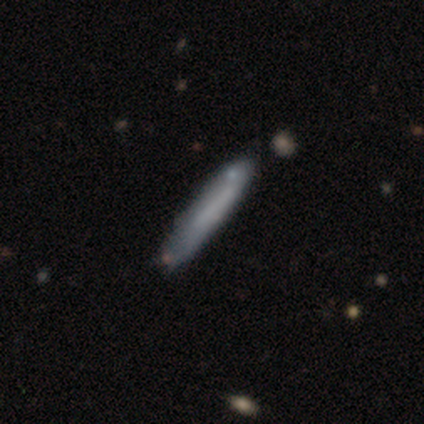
Smooth or featured: smooth — 71% (featured or disk — 26%)
How rounded: cigar-shaped — 100%
Merging: none — 81% (minor disturbance — 11%)